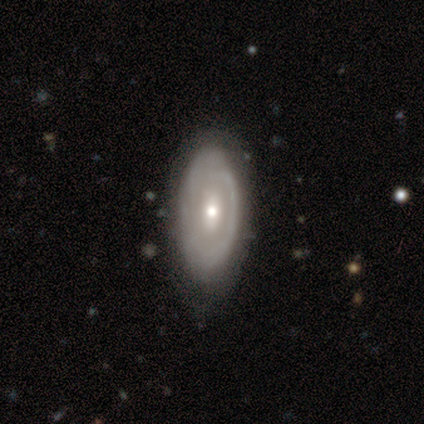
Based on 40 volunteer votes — A featured or disk galaxy (65%) with no bar (50%), no spiral arms (62%) and a moderate central bulge (54%).

Vote fractions:
- Smooth or featured? featured or disk: 65% / smooth: 30% / star or artifact: 5%
- Edge-on disk? no: 92% / yes: 8%
- Bar? no: 50% / strong: 29% / weak: 21%
- Spiral arms? no: 62% / yes: 38%
- Bulge size? moderate: 54% / small: 29% / dominant: 8% / large: 8% / none: 0%
- Merging? none: 66% / minor disturbance: 29% / major disturbance: 3% / merger: 3%